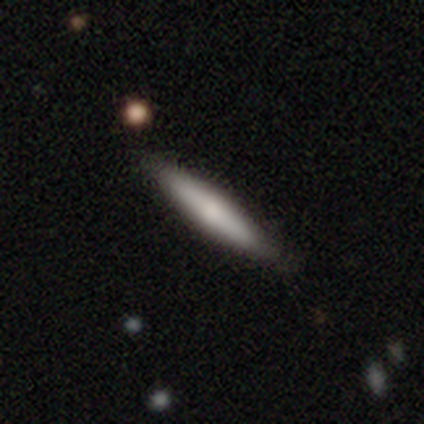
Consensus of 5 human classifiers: smooth-or-featured: featured or disk: 60% | smooth: 40% | star or artifact: 0%
  disk-edge-on: yes: 100% | no: 0%
    edge-on-bulge: rounded: 67% | none: 33% | boxy: 0%
  merging: none: 80% | minor disturbance: 20% | major disturbance: 0% | merger: 0%